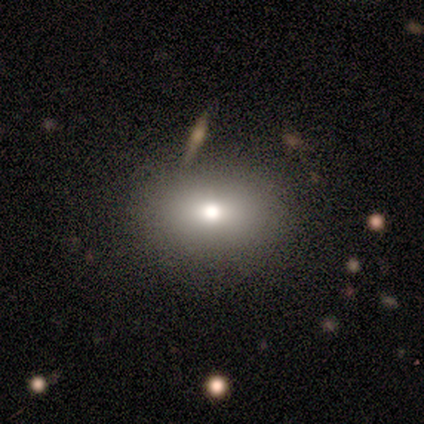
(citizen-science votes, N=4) A smooth galaxy with no disk features (50%, tied with star or artifact) that is round (100%).

Vote fractions:
- Smooth or featured? smooth: 50% (tied) / star or artifact: 50% (tied) / featured or disk: 0%
- How rounded? round: 100% / in between: 0% / cigar-shaped: 0%
- Merging? none: 100% / minor disturbance: 0% / major disturbance: 0% / merger: 0%